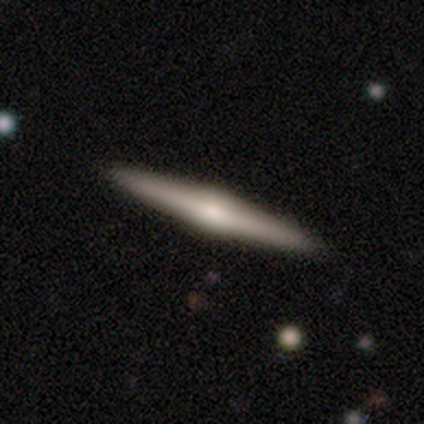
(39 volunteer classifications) Q: Smooth or featured?
A: featured or disk (82%); runner-up: smooth (18%)
Q: Edge-on disk?
A: yes (100%)
Q: Edge-on bulge?
A: rounded (84%); runner-up: none (9%)
Q: Merging?
A: none (56%); runner-up: minor disturbance (3%)